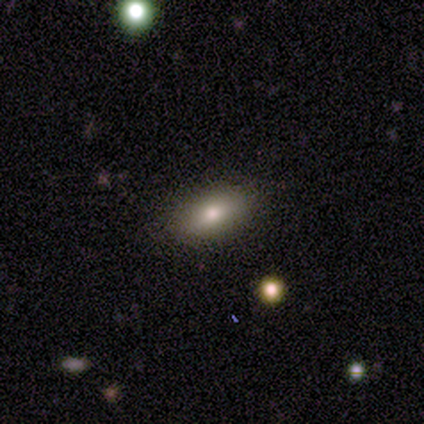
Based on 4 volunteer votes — smooth_or_featured: smooth (p=0.50) [tied with: featured or disk p=0.50]
how_rounded: round (p=0.50) [tied with: in between p=0.50]
merging: none (p=0.75) [alt: minor disturbance p=0.25]